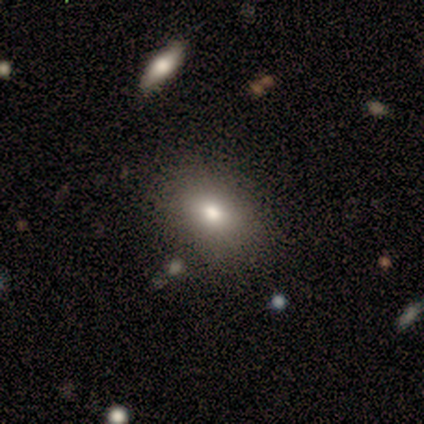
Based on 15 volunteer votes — smooth 87%, star or artifact 13%, featured or disk 0%. Down the decision tree: how rounded — in between (77%); merging — none (69%).